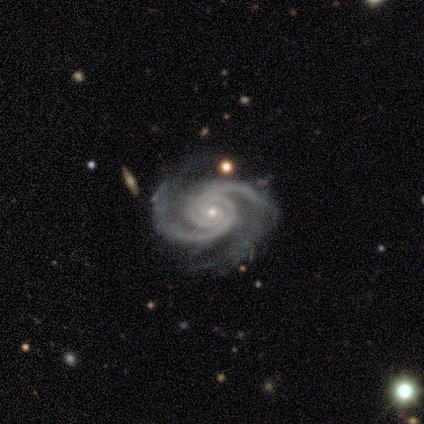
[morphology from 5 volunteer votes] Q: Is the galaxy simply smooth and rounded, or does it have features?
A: featured or disk — 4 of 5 (80%).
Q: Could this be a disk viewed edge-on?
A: no — 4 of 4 (100%).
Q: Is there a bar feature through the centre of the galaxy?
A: no — 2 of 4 (50%).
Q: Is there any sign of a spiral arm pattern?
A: yes — 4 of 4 (100%).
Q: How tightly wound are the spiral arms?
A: tight — 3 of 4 (75%).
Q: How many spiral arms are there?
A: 2 — 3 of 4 (75%).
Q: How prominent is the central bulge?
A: small — 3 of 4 (75%).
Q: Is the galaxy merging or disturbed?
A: none — 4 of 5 (80%).